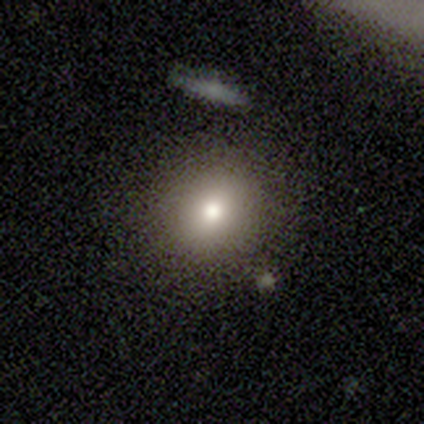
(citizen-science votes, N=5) Morphology: type=smooth (60%); roundness=round (67%); merging=none (75%).